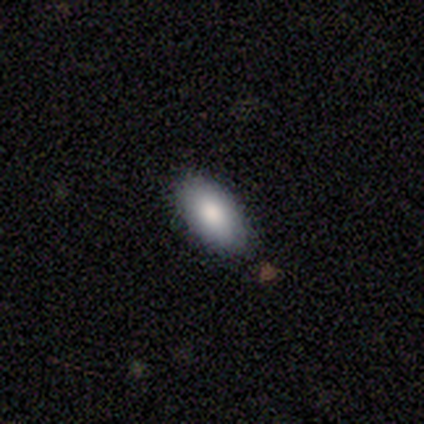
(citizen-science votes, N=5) Smooth or featured? smooth (100%)
How rounded? in between (80%)
Merging? none (80%)